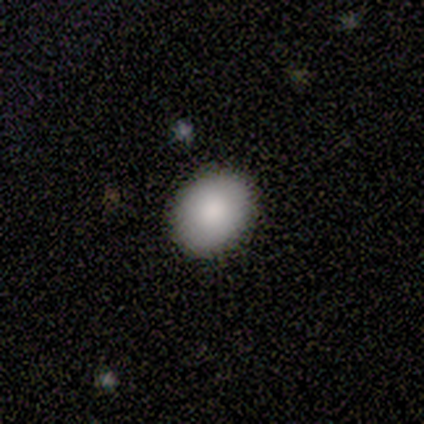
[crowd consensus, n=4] This appears to be a smooth galaxy with no disk features (100%) that is round (50%, tied with in between). Merging: none (100%).